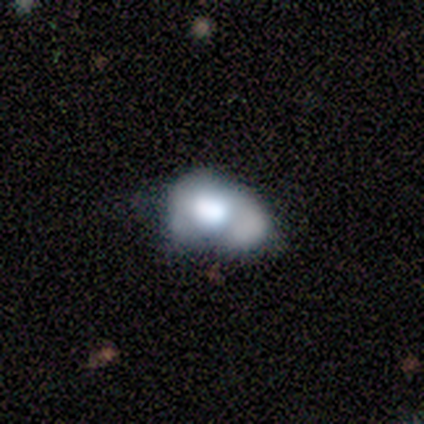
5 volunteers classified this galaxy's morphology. Smooth or featured? featured or disk (80%)
Edge-on disk? no (100%)
Bar? no (100%)
Spiral arms? no (100%)
Bulge size? dominant (50%, tied with large)
Merging? major disturbance (60%)